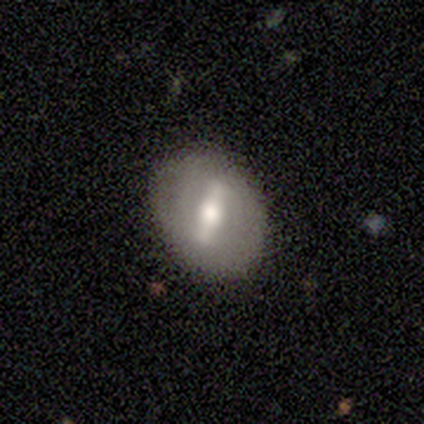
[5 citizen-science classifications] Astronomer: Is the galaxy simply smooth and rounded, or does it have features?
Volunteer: featured or disk — 80%.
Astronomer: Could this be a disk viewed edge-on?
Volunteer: no — 75%.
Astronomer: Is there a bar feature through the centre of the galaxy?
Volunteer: strong — 67%.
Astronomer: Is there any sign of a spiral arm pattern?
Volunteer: no — 67%.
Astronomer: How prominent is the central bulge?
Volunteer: moderate — 100%.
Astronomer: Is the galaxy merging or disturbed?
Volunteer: none — 100%.